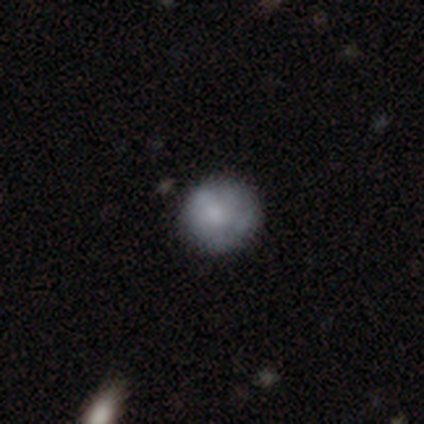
Smooth or featured? smooth (100%)
How rounded? round (100%)
Merging? none (100%)